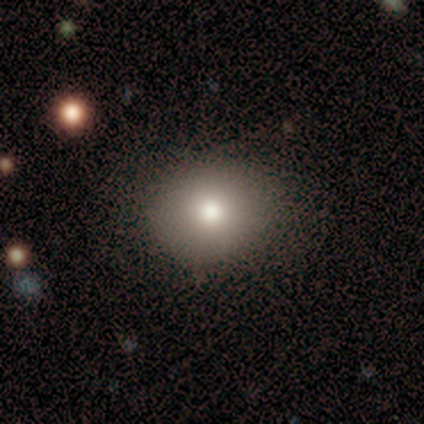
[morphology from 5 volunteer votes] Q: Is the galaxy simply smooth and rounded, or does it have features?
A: smooth — 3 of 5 (60%).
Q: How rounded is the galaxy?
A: round — 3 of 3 (100%).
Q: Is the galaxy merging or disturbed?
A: none — 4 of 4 (100%).